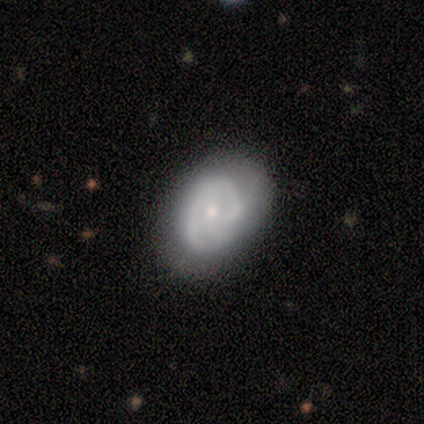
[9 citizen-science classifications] Smooth or featured? featured or disk (78%)
Edge-on disk? no (100%)
Bar? no (86%)
Spiral arms? yes (57%)
Spiral winding? tight (50%)
Spiral arm count? 2 (50%, tied with can't tell)
Bulge size? small (71%)
Merging? none (67%)